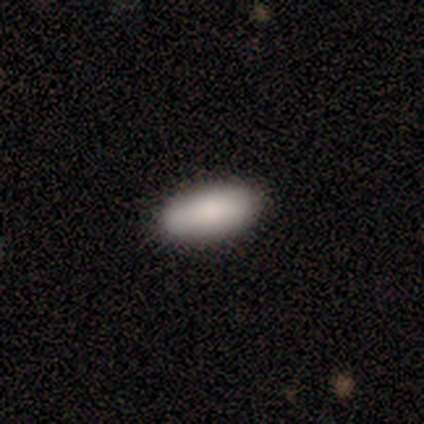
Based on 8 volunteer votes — Volunteers were most divided on "smooth or featured": smooth: 88%, featured or disk: 12%, star or artifact: 0%. More confident: how rounded — in between (100%); merging — none (100%).